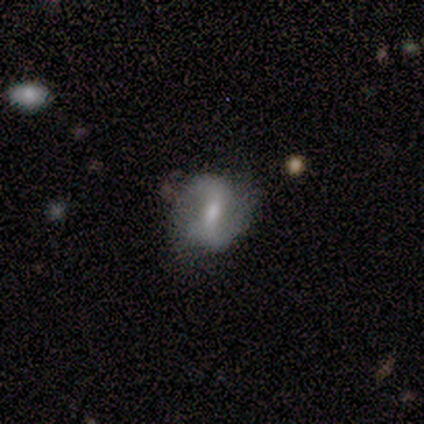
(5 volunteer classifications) A featured or disk galaxy (100%) with a weak bar (60%), 2 (60%) tight (40%, tied with loose) spiral arms (100%) and a moderate central bulge (40%). Merging: minor disturbance (60%).